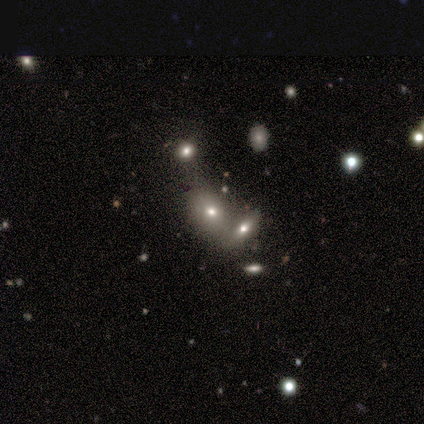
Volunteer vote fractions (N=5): Q: Smooth or featured?
A: smooth (80%); runner-up: featured or disk (20%)
Q: How rounded?
A: in between (75%); runner-up: round (25%)
Q: Merging?
A: none (40%); tied with: merger (40%)